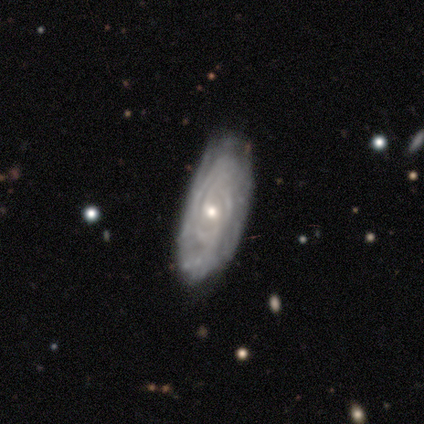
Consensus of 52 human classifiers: Morphology: type=featured or disk (81%); edge-on=no (100%); bar=weak (52%); spiral arms=yes (95%); winding=tight (70%); arm count=can't tell (68%); bulge=small (50%); merging=none (64%).